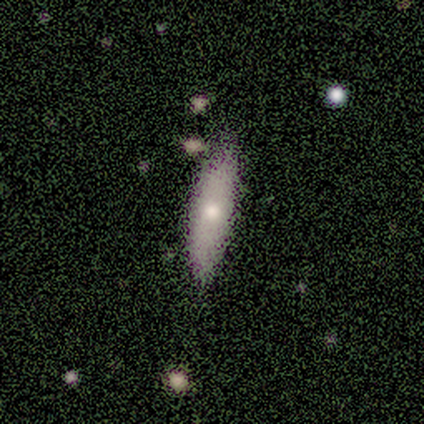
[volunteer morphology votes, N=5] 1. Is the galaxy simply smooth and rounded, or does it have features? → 100% smooth, 0% featured or disk, 0% star or artifact.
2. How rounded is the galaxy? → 100% cigar-shaped, 0% round, 0% in between.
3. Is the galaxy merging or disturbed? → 60% none, 40% minor disturbance, 0% major disturbance, 0% merger.